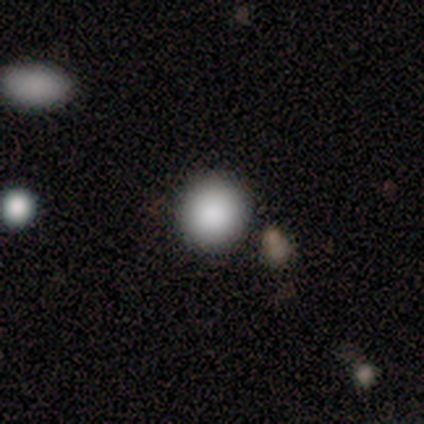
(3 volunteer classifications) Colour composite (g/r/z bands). It shows a smooth galaxy with no disk features (100%) that is round (67%). Merging: none (67%).